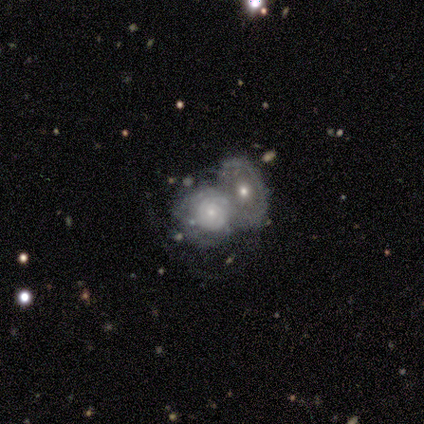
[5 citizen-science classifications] Overall: featured or disk (60%; smooth 40%). Edge-on disk: no (100%). Bar: no (100%). Spiral arms: yes (67%; no 33%). Spiral arm count: can't tell (100%). Spiral winding: tight (100%). Bulge size: small (100%). Merging: merger (100%).